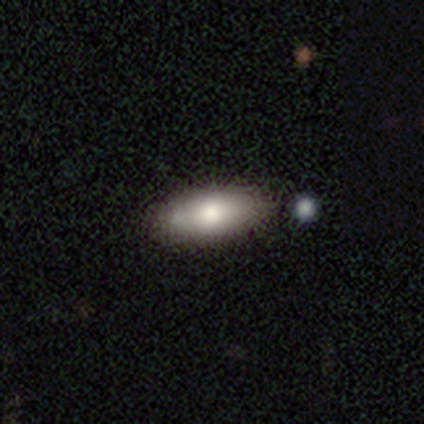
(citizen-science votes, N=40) A smooth galaxy with no disk features (75%) that is in between round and cigar-shaped (70%).

Vote fractions:
- Smooth or featured? smooth: 75% / featured or disk: 22% / star or artifact: 2%
- How rounded? in between: 70% / cigar-shaped: 30% / round: 0%
- Merging? none: 74% / minor disturbance: 21% / major disturbance: 3% / merger: 3%